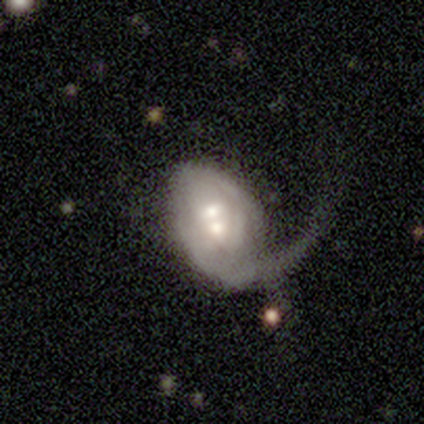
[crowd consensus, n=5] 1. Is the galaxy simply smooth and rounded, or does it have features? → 80% featured or disk, 20% smooth, 0% star or artifact.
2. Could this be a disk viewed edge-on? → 75% no, 25% yes.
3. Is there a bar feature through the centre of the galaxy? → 67% weak, 33% no, 0% strong.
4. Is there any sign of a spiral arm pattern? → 67% no, 33% yes.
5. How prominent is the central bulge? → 67% moderate, 33% small, 0% dominant, 0% large, 0% none.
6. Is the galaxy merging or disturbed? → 40% none (tied), 40% merger (tied), 20% major disturbance, 0% minor disturbance.